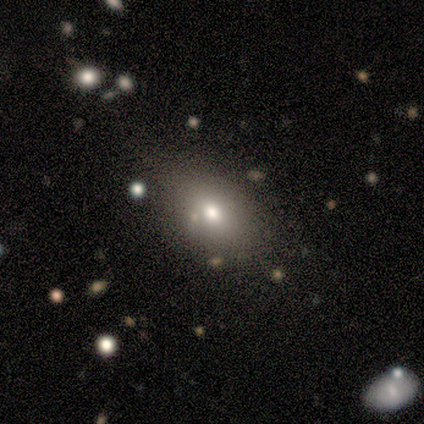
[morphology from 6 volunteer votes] This is likely a smooth galaxy (67%). How rounded: clearly in between (100%). Merging: clearly none (100%).